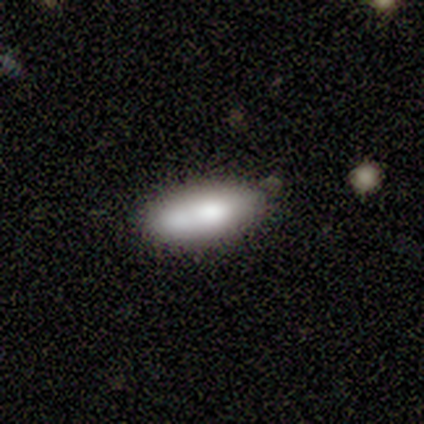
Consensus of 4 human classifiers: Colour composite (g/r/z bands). It shows a smooth galaxy with no disk features (50%, tied with featured or disk) that is in between round and cigar-shaped (50%, tied with cigar-shaped). Merging: none (50%).